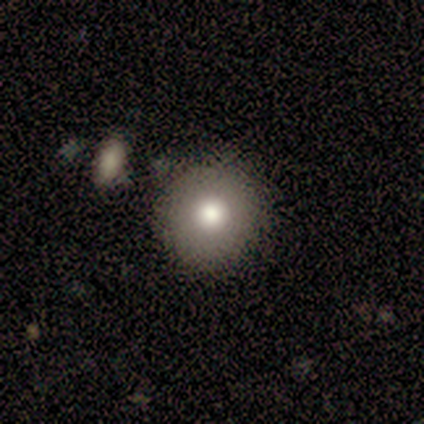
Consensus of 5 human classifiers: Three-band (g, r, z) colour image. It shows a smooth galaxy with no disk features (60%) that is round (100%). Merging: none (100%).